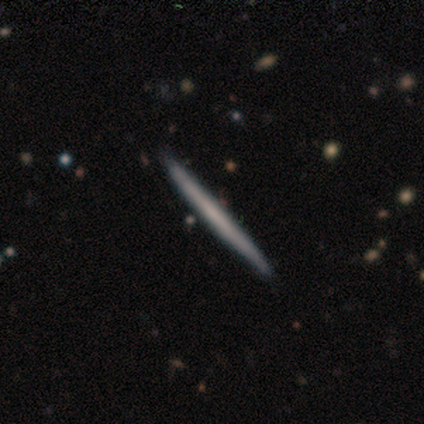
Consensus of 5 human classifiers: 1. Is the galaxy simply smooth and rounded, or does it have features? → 60% featured or disk, 40% smooth, 0% star or artifact.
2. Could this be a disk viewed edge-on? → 100% yes, 0% no.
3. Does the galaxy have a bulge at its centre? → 100% none, 0% boxy, 0% rounded.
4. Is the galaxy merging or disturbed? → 100% none, 0% minor disturbance, 0% major disturbance, 0% merger.